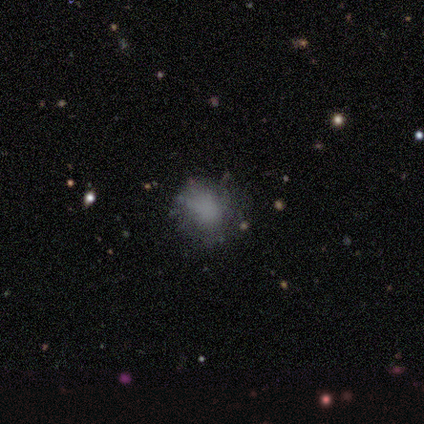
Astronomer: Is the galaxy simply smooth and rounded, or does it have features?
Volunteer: featured or disk — 60% (runner-up: smooth, 40%).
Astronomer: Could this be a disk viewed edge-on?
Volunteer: no — 100%.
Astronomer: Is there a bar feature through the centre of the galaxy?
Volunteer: no — 100%.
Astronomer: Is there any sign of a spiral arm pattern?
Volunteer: no — 100%.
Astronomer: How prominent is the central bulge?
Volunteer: none — 100%.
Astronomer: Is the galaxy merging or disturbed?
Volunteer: none — 100%.